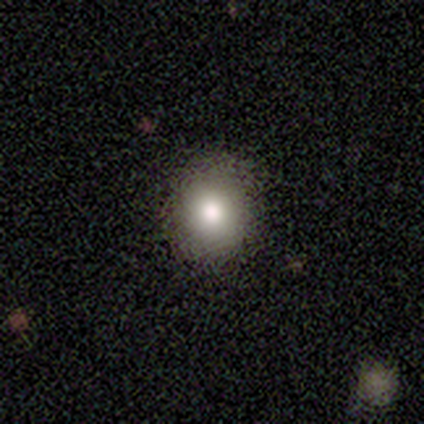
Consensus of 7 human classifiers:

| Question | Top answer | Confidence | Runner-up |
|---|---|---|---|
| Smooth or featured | smooth | 100% | — |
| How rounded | round | 100% | — |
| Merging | none | 100% | — |